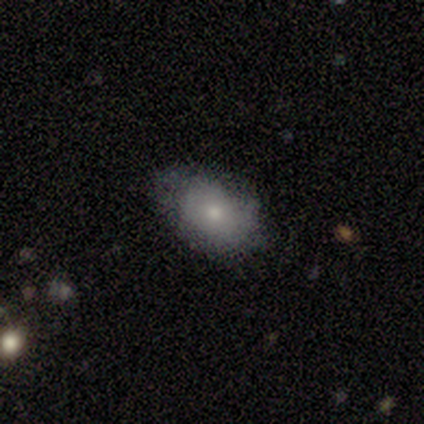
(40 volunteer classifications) This appears to be a smooth galaxy with no disk features (75%) that is in between round and cigar-shaped (97%). Merging: none (76%).